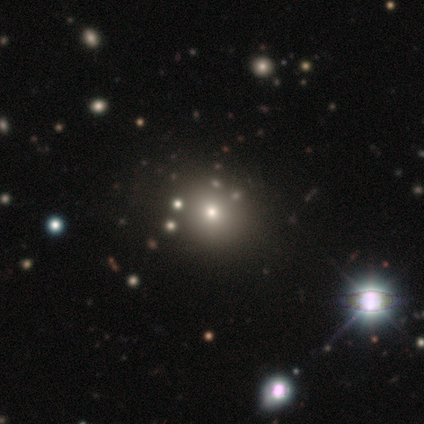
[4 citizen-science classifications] Smooth or featured?
  - smooth: 50% * (tied)
  - star or artifact: 50% * (tied)
  - featured or disk: 0%
How rounded?
  - round: 50% * (tied)
  - in between: 50% * (tied)
  - cigar-shaped: 0%
Merging?
  - none: 50% * (tied)
  - minor disturbance: 50% * (tied)
  - major disturbance: 0%
  - merger: 0%